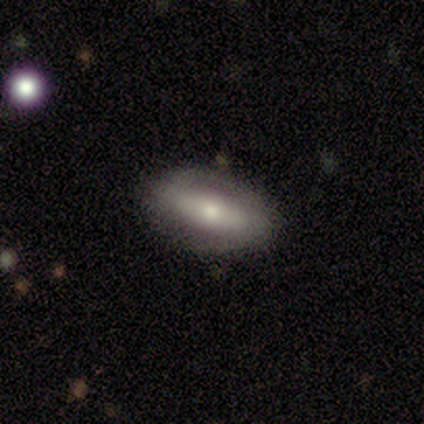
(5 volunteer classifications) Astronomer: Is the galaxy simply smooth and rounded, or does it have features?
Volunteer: featured or disk — 100%.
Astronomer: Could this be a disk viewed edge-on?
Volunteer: no — 60% (runner-up: yes, 40%).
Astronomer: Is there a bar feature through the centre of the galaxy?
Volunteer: strong — 67%.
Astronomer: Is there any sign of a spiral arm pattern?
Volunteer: yes — 100%.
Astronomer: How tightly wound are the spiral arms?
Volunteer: tight — 33%, tied with medium and loose at 33%.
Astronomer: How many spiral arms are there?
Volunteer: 2 — 67%.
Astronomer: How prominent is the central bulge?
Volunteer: moderate — 100%.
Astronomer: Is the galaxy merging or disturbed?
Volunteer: none — 80%.